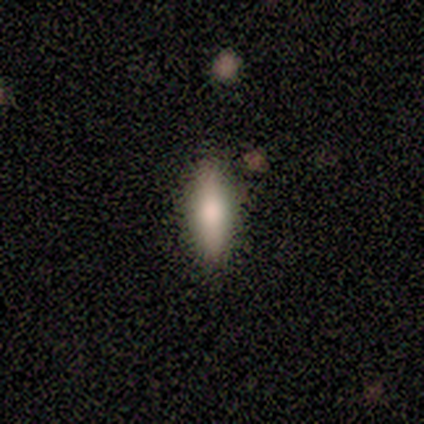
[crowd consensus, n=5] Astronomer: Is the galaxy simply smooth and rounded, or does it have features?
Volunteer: smooth — 60% (runner-up: featured or disk, 40%).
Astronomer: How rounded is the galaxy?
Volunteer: in between — 67%.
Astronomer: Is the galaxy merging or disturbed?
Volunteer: none — 80%.